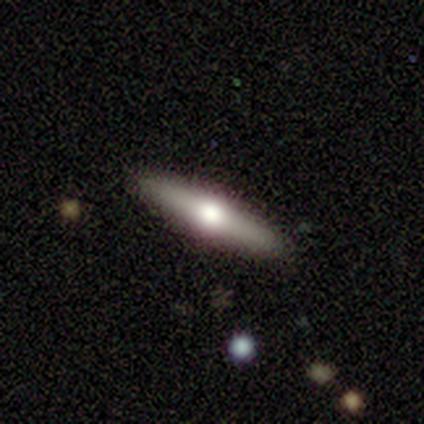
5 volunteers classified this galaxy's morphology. A smooth galaxy with no disk features (60%) that is cigar-shaped (100%). Merging: none (100%).